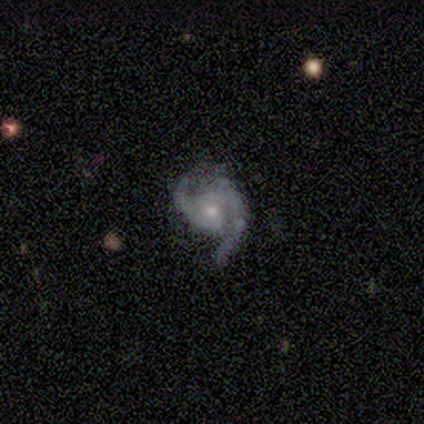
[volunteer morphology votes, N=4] Q: Smooth or featured?
A: featured or disk (75%); runner-up: smooth (25%)
Q: Edge-on disk?
A: no (100%)
Q: Bar?
A: no (100%)
Q: Spiral arms?
A: yes (100%)
Q: Spiral winding?
A: medium (67%); runner-up: loose (33%)
Q: Spiral arm count?
A: 2 (67%); runner-up: 1 (33%)
Q: Bulge size?
A: small (100%)
Q: Merging?
A: major disturbance (50%); runner-up: none (25%)